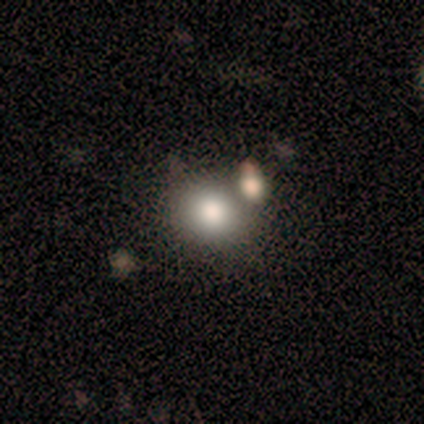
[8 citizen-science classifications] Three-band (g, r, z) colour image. It shows a smooth galaxy with no disk features (62%) that is round (80%). Merging: none (50%, tied with merger).